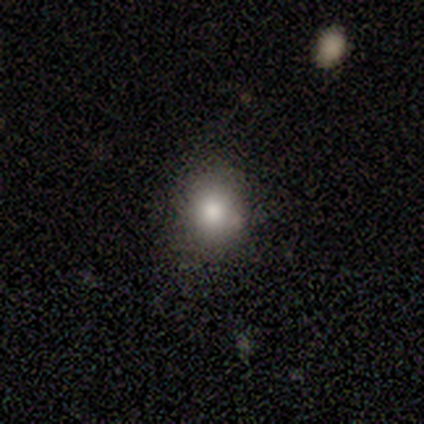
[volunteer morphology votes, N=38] smooth-or-featured: smooth: 79% | featured or disk: 11% | star or artifact: 11%
  how-rounded: round: 80% | in between: 20% | cigar-shaped: 0%
  merging: none: 85% | minor disturbance: 12% | major disturbance: 3% | merger: 0%